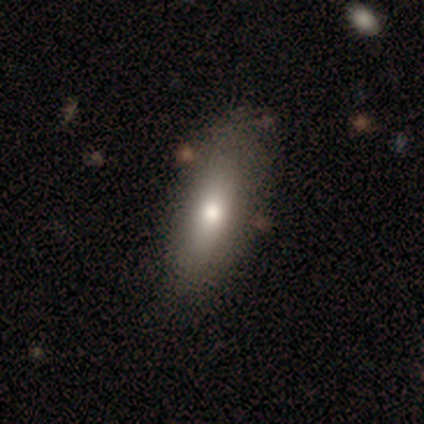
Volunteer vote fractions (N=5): This is clearly a smooth galaxy (80%). How rounded: possibly in between (50%, tied with cigar-shaped). Merging: clearly none (100%).